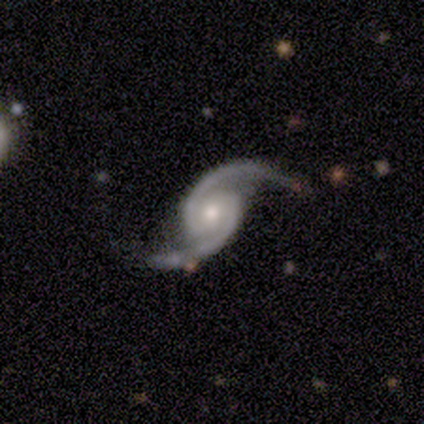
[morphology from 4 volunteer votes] Smooth or featured: featured or disk — 75% (star or artifact — 25%)
Edge-on disk: no — 100%
Bar: weak — 67% (no — 33%)
Spiral arms: yes — 100%
Spiral winding: medium — 100%
Spiral arm count: 2 — 100%
Bulge size: moderate — 67% (small — 33%)
Merging: none — 67% (merger — 33%)